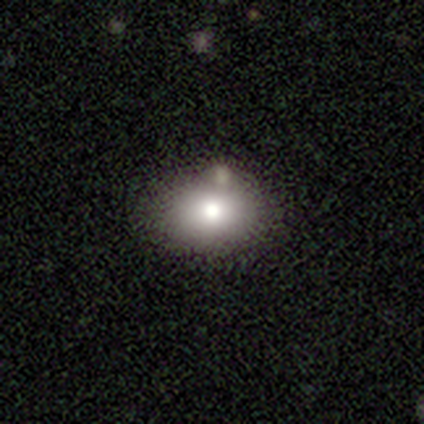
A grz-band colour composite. It shows a smooth galaxy with no disk features (80%) that is in between round and cigar-shaped (100%). Merging: none (60%).